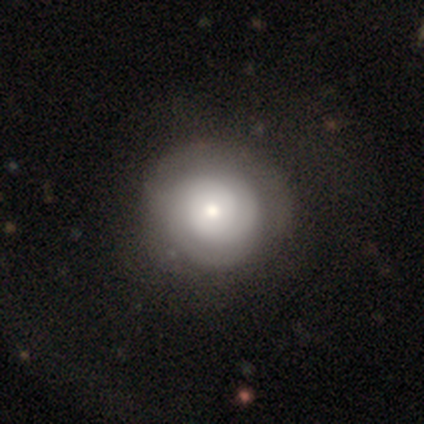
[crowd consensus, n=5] Overall: smooth (40%, tied with featured or disk). How rounded: round (100%). Merging: none (100%).